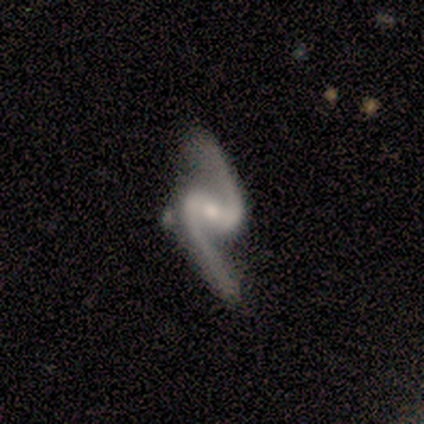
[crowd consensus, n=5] Volunteers were most divided on "merging" (2-way tie): none: 40%, minor disturbance: 40%, major disturbance: 20%, merger: 0%. More confident: smooth or featured — featured or disk (100%); edge-on disk — no (100%); spiral arms — yes (100%); spiral winding — loose (100%); spiral arm count — 2 (100%); bar — weak (80%); bulge size — small (60%).